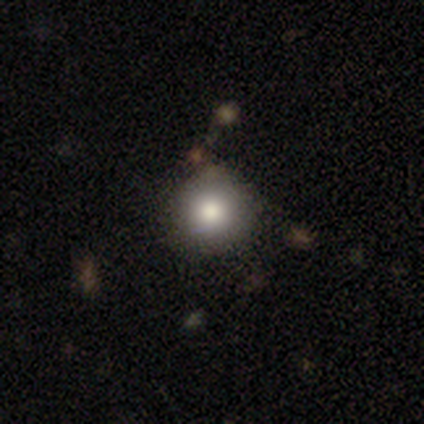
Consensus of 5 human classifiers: Morphology: type=smooth (60%); roundness=round (100%); merging=none (100%).